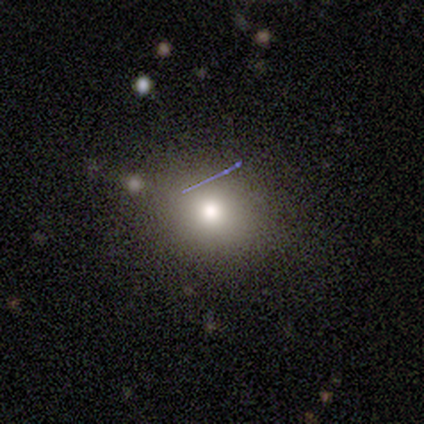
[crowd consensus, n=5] smooth-or-featured: smooth: 80% | star or artifact: 20% | featured or disk: 0%
  how-rounded: in between: 75% | round: 25% | cigar-shaped: 0%
  merging: none: 50% | minor disturbance: 25% | merger: 25% | major disturbance: 0%